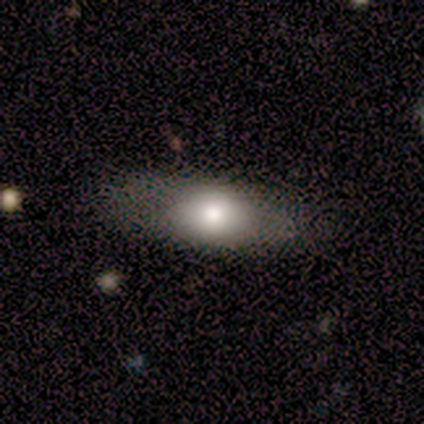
This is clearly a smooth galaxy (80%). How rounded: likely in between (75%). Merging: clearly none (100%).